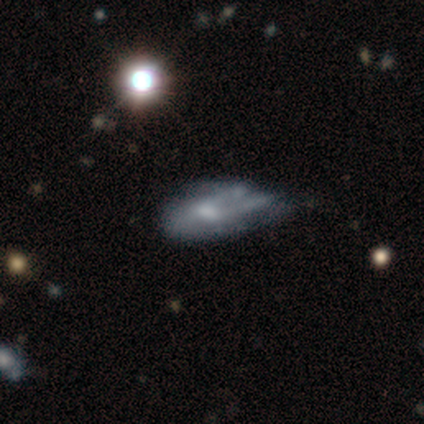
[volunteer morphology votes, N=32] This is marginally a smooth galaxy (41%). How rounded: clearly in between (85%). Merging: possibly minor disturbance (56%).